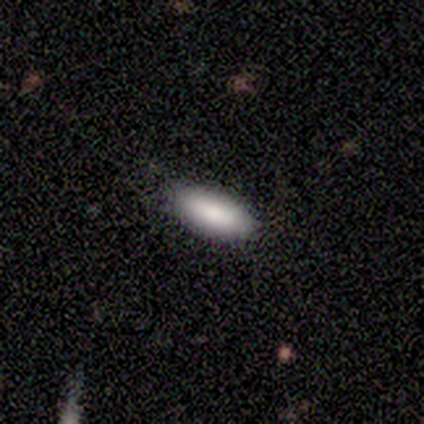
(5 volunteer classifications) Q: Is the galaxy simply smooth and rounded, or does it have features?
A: smooth — 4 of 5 (80%).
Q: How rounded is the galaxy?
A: in between — 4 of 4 (100%).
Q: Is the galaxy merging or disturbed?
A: none — 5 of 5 (100%).